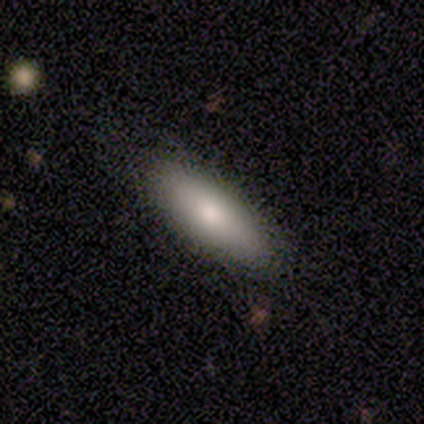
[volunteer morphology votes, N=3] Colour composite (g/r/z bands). It shows a smooth galaxy with no disk features (67%) that is in between round and cigar-shaped (100%). Merging: none (100%).